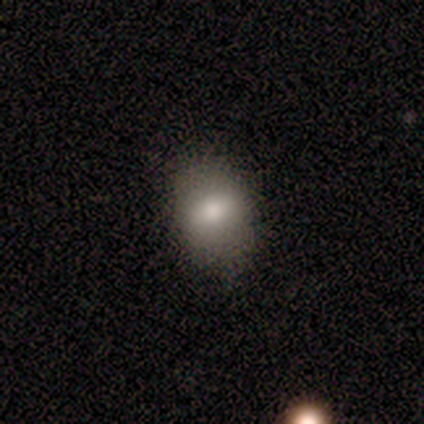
Smooth or featured: smooth — 75% (featured or disk — 25%)
How rounded: in between — 100%
Merging: none — 75% (major disturbance — 25%)